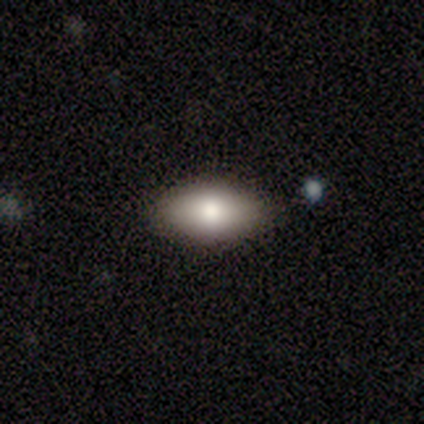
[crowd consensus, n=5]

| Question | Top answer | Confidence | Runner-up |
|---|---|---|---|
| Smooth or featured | smooth | 80% | featured or disk (20%) |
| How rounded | in between | 75% | cigar-shaped (25%) |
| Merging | none | 100% | — |